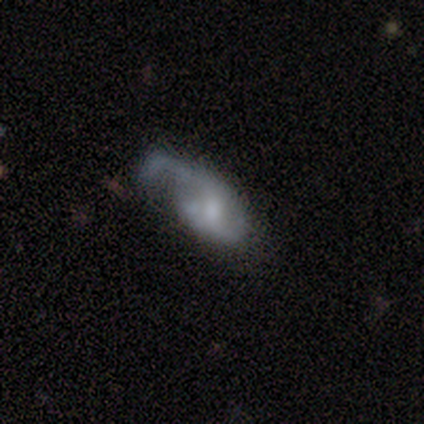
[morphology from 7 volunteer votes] smooth_or_featured: featured or disk (p=0.71) [alt: smooth p=0.14]
disk_edge_on: no (p=1.00)
bar: no (p=1.00)
has_spiral_arms: yes (p=0.80) [alt: no p=0.20]
spiral_winding: loose (p=0.75) [alt: medium p=0.25]
spiral_arm_count: 2 (p=0.50) [alt: 1 p=0.25]
bulge_size: moderate (p=0.80) [alt: none p=0.20]
merging: major disturbance (p=0.83) [alt: none p=0.17]